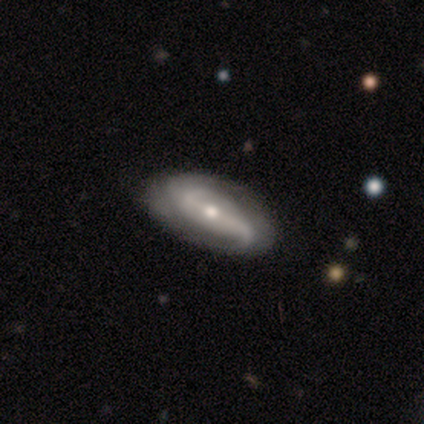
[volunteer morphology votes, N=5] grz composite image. It shows a featured or disk galaxy (100%) with a strong bar (80%), 2 (100%) loose (75%) spiral arms (80%) and a moderate central bulge (40%). Merging: none (60%).